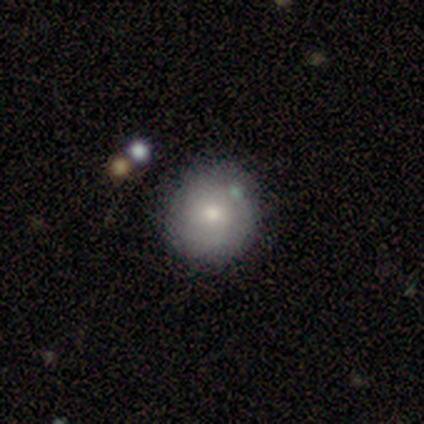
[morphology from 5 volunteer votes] smooth-or-featured: smooth: 60% | featured or disk: 40% | star or artifact: 0%
  how-rounded: round: 100% | in between: 0% | cigar-shaped: 0%
  merging: minor disturbance: 60% | none: 40% | major disturbance: 0% | merger: 0%